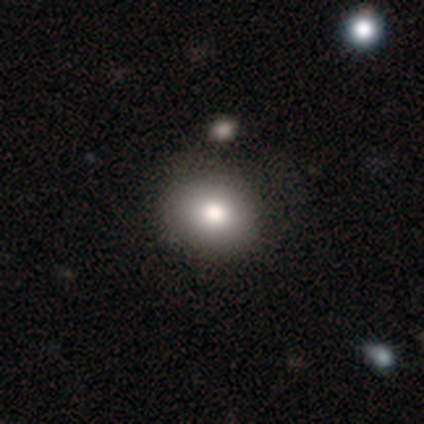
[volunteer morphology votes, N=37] Smooth or featured: smooth — 97% (featured or disk — 3%)
How rounded: round — 58% (in between — 42%)
Merging: none — 49% (merger — 14%)